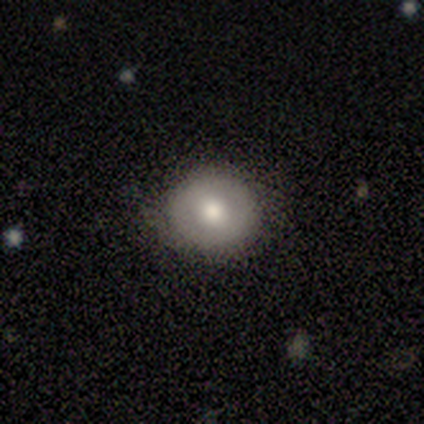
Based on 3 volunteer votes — Volunteers were most divided on "how rounded": round: 67%, in between: 33%, cigar-shaped: 0%. More confident: smooth or featured — smooth (100%); merging — none (100%).